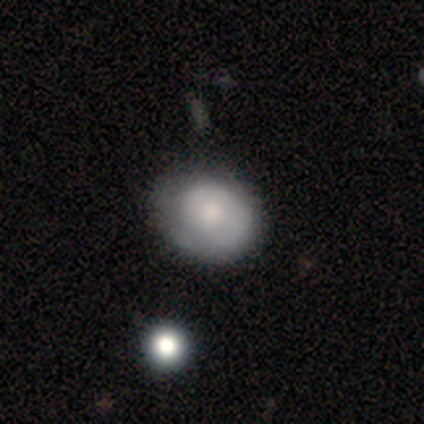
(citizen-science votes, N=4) smooth 50% (tied), featured or disk 50% (tied), star or artifact 0%. Down the decision tree: how rounded — round (50%, tied with in between); merging — none (50%, tied with minor disturbance).